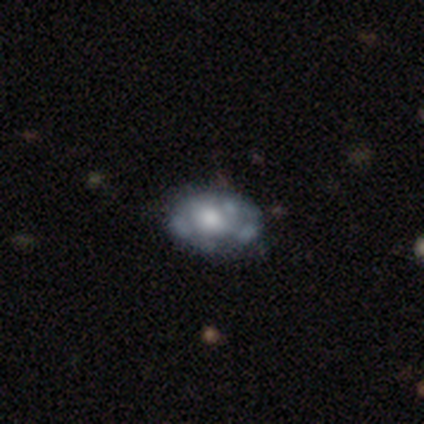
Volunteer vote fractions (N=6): Smooth or featured? 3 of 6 (50%, tied with featured or disk) said smooth. How rounded? 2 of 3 (67%) said in between. Merging? 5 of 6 (83%) said none.